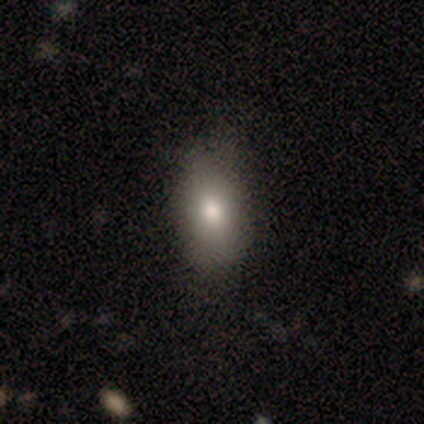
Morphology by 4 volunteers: type=smooth (50%); roundness=in between (100%); merging=none (67%).